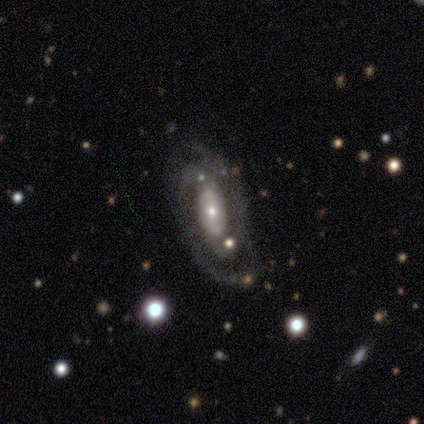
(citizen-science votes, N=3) Q: Smooth or featured?
A: featured or disk (67%); runner-up: star or artifact (33%)
Q: Edge-on disk?
A: no (100%)
Q: Bar?
A: weak (50%); tied with: no (50%)
Q: Spiral arms?
A: yes (100%)
Q: Spiral winding?
A: tight (50%); tied with: medium (50%)
Q: Spiral arm count?
A: 2 (100%)
Q: Bulge size?
A: small (100%)
Q: Merging?
A: minor disturbance (100%)